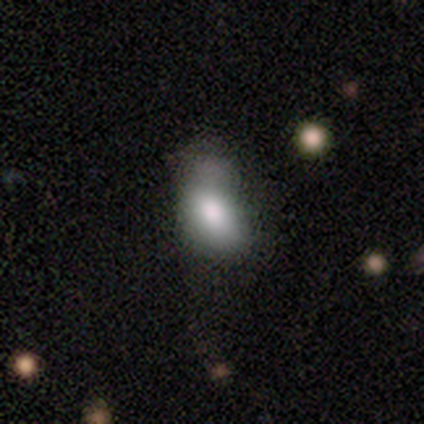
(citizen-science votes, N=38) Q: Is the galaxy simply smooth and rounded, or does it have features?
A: smooth — 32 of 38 (84%).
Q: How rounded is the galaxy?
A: in between — 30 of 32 (94%).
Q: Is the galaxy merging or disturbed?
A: minor disturbance — 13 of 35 (37%).